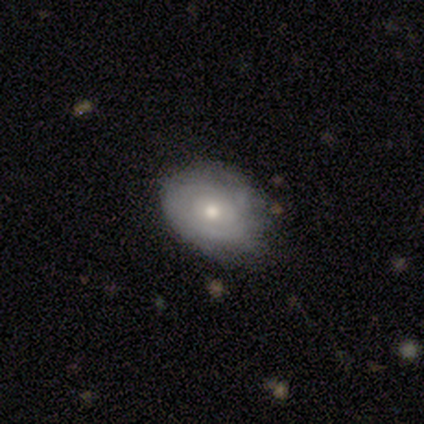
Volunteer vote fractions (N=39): Smooth or featured? featured or disk (49%)
Edge-on disk? no (95%)
Bar? no (83%)
Spiral arms? yes (61%)
Spiral winding? tight (73%)
Spiral arm count? can't tell (82%)
Bulge size? moderate (67%)
Merging? none (57%)